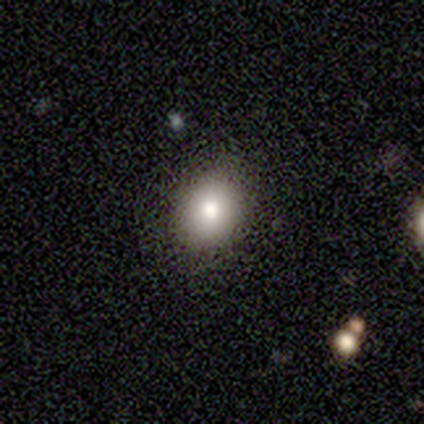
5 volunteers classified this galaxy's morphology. Overall: smooth (100%). How rounded: in between (60%; round 40%). Merging: none (100%).